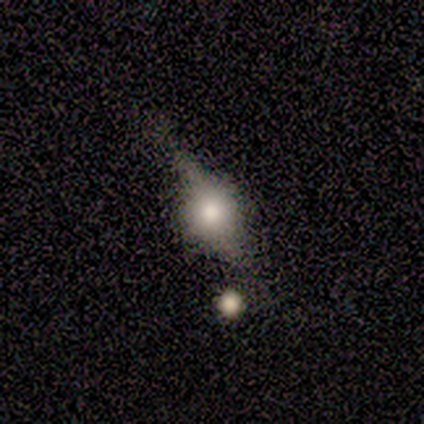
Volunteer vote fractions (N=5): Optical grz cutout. It shows a featured or disk galaxy (80%) viewed edge-on (75%) with a rounded central bulge (100%). Merging: none (60%).